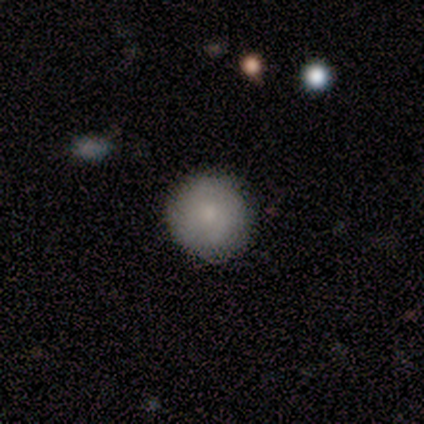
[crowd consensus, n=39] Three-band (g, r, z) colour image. It shows a smooth galaxy with no disk features (74%) that is round (90%). Merging: none (89%).